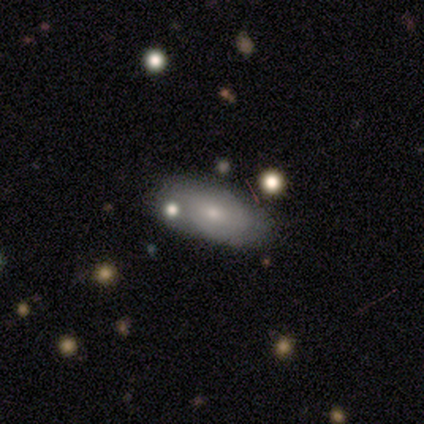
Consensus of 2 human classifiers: Volunteers were most divided on "smooth or featured" (2-way tie): smooth: 50%, featured or disk: 50%, star or artifact: 0%; "merging" (2-way tie): none: 50%, merger: 50%, minor disturbance: 0%, major disturbance: 0%. More confident: how rounded — in between (100%).